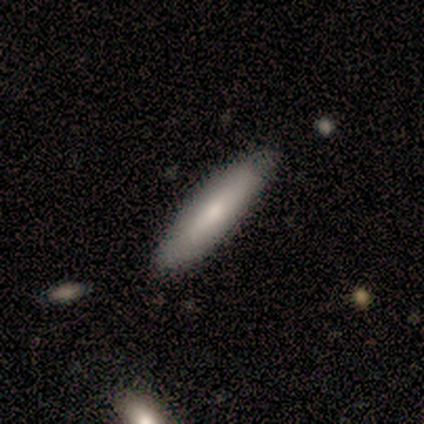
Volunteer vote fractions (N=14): Smooth or featured? smooth (57%)
How rounded? cigar-shaped (62%)
Merging? none (93%)